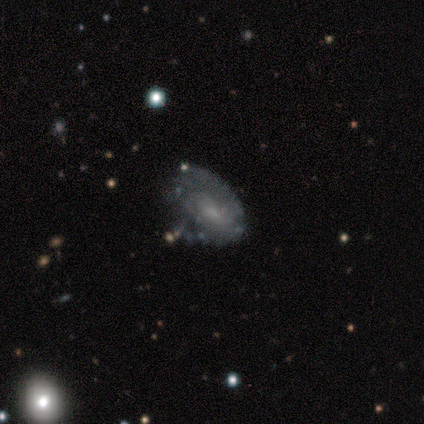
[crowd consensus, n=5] A featured or disk galaxy (60%) with a weak bar (67%), 2 (50%, tied with can't tell) tight (50%, tied with loose) spiral arms (67%) and a large central bulge (33%, tied with moderate and small).

Vote fractions:
- Smooth or featured? featured or disk: 60% / smooth: 40% / star or artifact: 0%
- Edge-on disk? no: 100% / yes: 0%
- Bar? weak: 67% / no: 33% / strong: 0%
- Spiral arms? yes: 67% / no: 33%
- Spiral winding? tight: 50% (tied) / loose: 50% (tied) / medium: 0%
- Spiral arm count? 2: 50% (tied) / can't tell: 50% (tied) / 1: 0% / 3: 0% / 4: 0% / more than 4: 0%
- Bulge size? large: 33% (tied) / moderate: 33% (tied) / small: 33% (tied) / dominant: 0% / none: 0%
- Merging? none: 60% / minor disturbance: 40% / major disturbance: 0% / merger: 0%